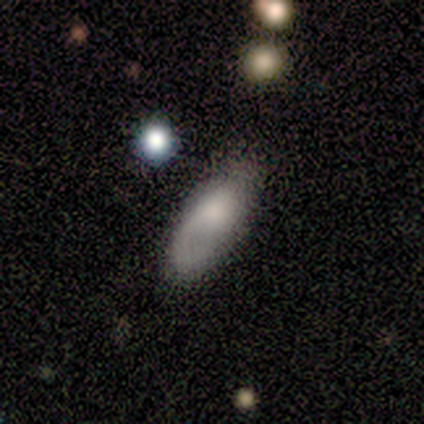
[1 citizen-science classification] Smooth or featured?
  - featured or disk: 100% *
  - smooth: 0%
  - star or artifact: 0%
Edge-on disk?
  - no: 100% *
  - yes: 0%
Bar?
  - no: 100% *
  - strong: 0%
  - weak: 0%
Spiral arms?
  - yes: 100% *
  - no: 0%
Spiral winding?
  - tight: 100% *
  - medium: 0%
  - loose: 0%
Spiral arm count?
  - 1: 100% *
  - 2: 0%
  - 3: 0%
  - 4: 0%
  - more than 4: 0%
  - can't tell: 0%
Bulge size?
  - moderate: 100% *
  - dominant: 0%
  - large: 0%
  - small: 0%
  - none: 0%
Merging?
  - major disturbance: 100% *
  - none: 0%
  - minor disturbance: 0%
  - merger: 0%